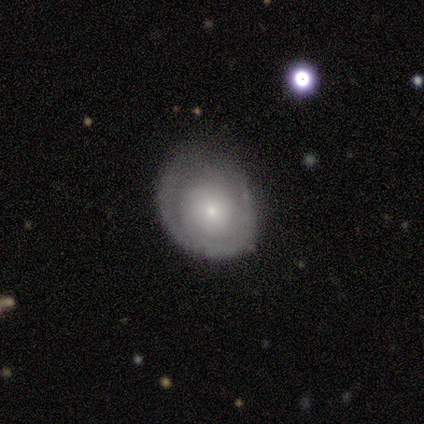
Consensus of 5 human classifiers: This appears to be a featured or disk galaxy (80%) with no bar (100%), tight (100%) spiral arms (75%) and a small central bulge (75%). Merging: none (40%, tied with minor disturbance).